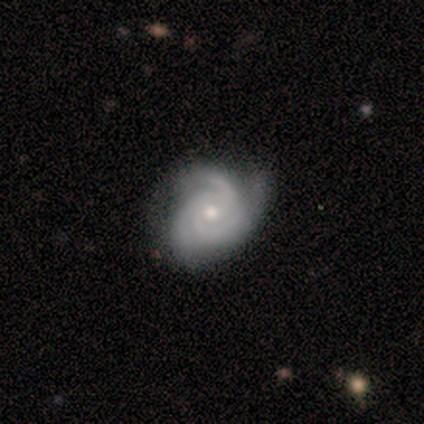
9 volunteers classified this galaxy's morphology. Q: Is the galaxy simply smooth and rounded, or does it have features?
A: featured or disk — 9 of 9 (100%).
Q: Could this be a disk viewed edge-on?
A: no — 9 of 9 (100%).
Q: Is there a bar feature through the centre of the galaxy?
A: no — 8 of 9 (89%).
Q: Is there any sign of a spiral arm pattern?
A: yes — 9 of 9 (100%).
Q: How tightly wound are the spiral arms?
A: tight — 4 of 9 (44%, tied with medium).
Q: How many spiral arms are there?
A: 3 — 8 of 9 (89%).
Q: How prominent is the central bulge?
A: small — 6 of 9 (67%).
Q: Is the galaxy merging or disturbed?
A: none — 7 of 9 (78%).